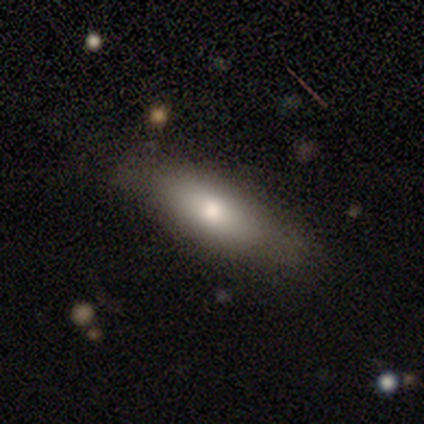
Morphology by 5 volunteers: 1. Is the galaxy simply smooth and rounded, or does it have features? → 80% smooth, 20% featured or disk, 0% star or artifact.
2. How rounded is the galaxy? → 50% in between (tied), 50% cigar-shaped (tied), 0% round.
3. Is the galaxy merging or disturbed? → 60% none, 20% minor disturbance, 20% merger, 0% major disturbance.